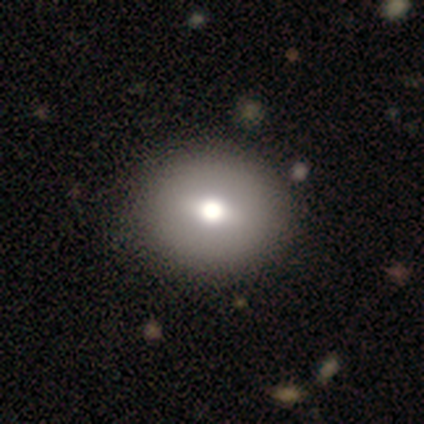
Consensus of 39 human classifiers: Overall: smooth (69%). How rounded: round (78%). Merging: none (51%).